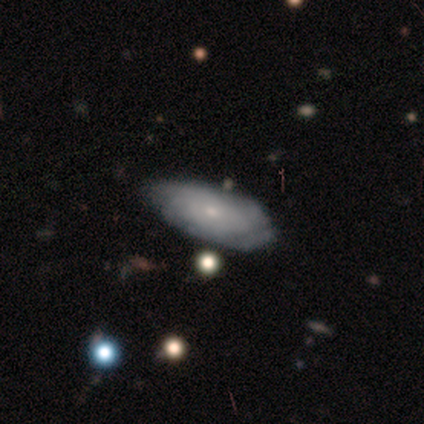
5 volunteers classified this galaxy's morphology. Volunteers were most divided on "merging" (2-way tie): none: 40%, minor disturbance: 40%, merger: 20%, major disturbance: 0%. More confident: edge-on disk — no (100%); bar — no (100%); smooth or featured — featured or disk (80%); spiral arms — no (75%); bulge size — moderate (75%).